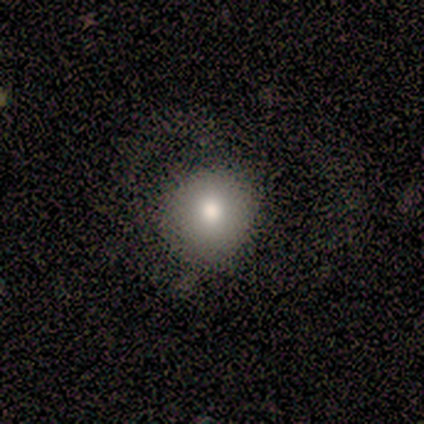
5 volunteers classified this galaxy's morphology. Q: Smooth or featured?
A: smooth (80%); runner-up: featured or disk (20%)
Q: How rounded?
A: round (100%)
Q: Merging?
A: none (80%); runner-up: major disturbance (20%)